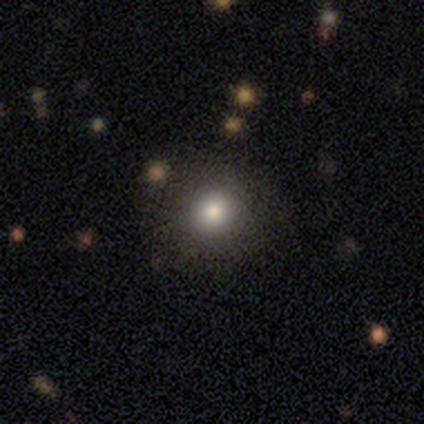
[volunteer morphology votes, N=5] Volunteers were most divided on "smooth or featured": smooth: 60%, featured or disk: 20%, star or artifact: 20%. More confident: how rounded — round (100%); merging — none (100%).